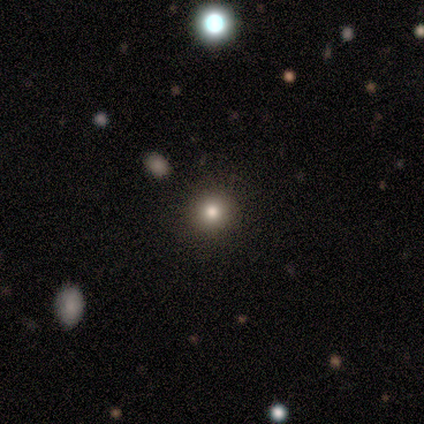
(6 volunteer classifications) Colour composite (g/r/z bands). It shows a smooth galaxy with no disk features (50%) that is round (100%). Merging: none (100%).